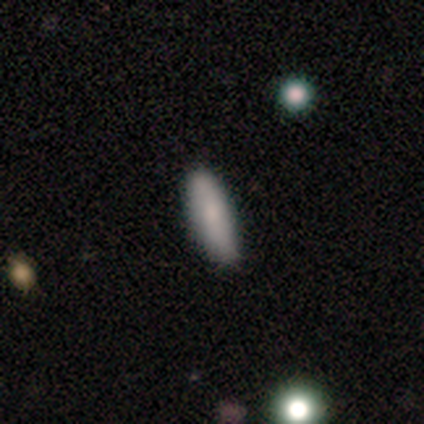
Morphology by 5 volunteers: smooth_or_featured: smooth (p=0.60) [alt: featured or disk p=0.40]
how_rounded: cigar-shaped (p=1.00)
merging: none (p=1.00)